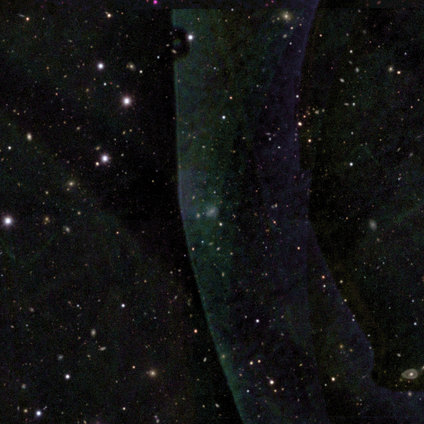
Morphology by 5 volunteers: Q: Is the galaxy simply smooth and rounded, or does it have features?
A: star or artifact — 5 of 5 (100%).